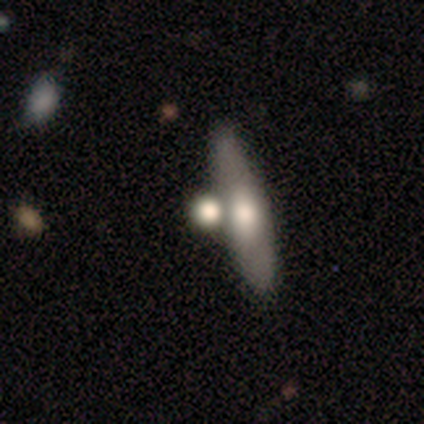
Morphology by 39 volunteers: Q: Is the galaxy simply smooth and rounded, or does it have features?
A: smooth — 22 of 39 (56%).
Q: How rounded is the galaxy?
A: cigar-shaped — 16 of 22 (73%).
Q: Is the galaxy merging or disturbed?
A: none — 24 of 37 (65%).